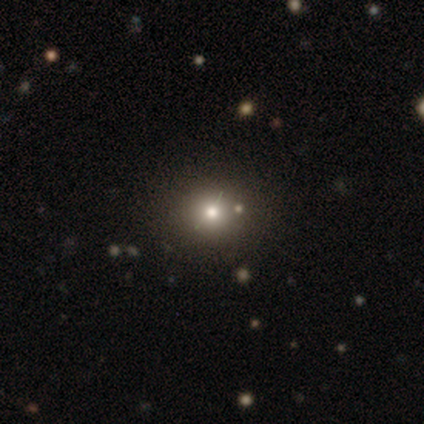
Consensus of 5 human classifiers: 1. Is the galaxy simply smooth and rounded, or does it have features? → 60% smooth, 20% featured or disk, 20% star or artifact.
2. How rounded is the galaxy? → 100% round, 0% in between, 0% cigar-shaped.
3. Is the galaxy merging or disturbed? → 100% none, 0% minor disturbance, 0% major disturbance, 0% merger.